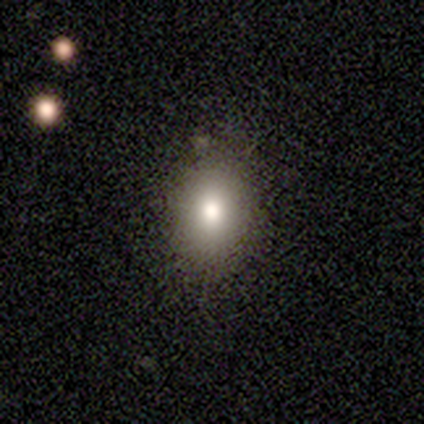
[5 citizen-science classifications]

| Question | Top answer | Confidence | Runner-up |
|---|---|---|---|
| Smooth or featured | smooth | 40% | tied: star or artifact (40%) |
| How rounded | round | 50% | tied: in between (50%) |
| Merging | minor disturbance | 67% | none (33%) |